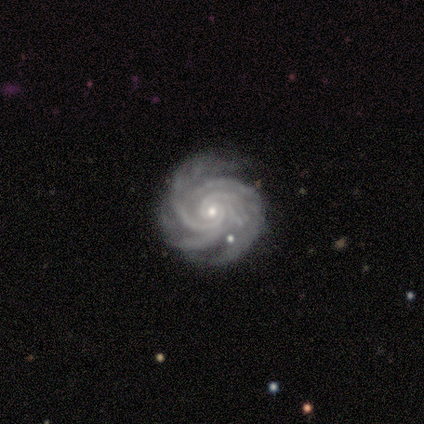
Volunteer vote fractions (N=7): Q: Smooth or featured?
A: featured or disk (100%)
Q: Edge-on disk?
A: no (100%)
Q: Bar?
A: no (71%); runner-up: strong (14%)
Q: Spiral arms?
A: yes (100%)
Q: Spiral winding?
A: tight (86%); runner-up: medium (14%)
Q: Spiral arm count?
A: can't tell (43%); runner-up: 3 (29%)
Q: Bulge size?
A: small (100%)
Q: Merging?
A: none (100%)